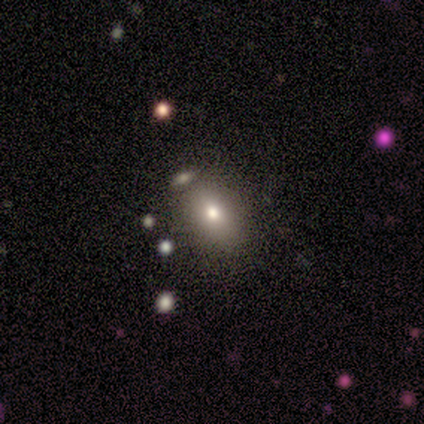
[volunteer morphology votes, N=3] smooth-or-featured: smooth: 67% | star or artifact: 33% | featured or disk: 0%
  how-rounded: in between: 100% | round: 0% | cigar-shaped: 0%
  merging: none: 50% (tied) | merger: 50% (tied) | minor disturbance: 0% | major disturbance: 0%